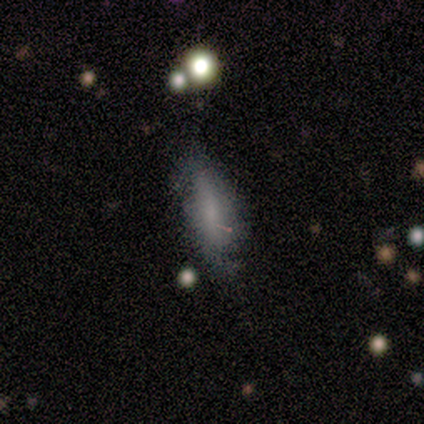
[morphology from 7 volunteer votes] This appears to be a smooth galaxy with no disk features (57%) that is in between round and cigar-shaped (100%). Merging: none (75%).